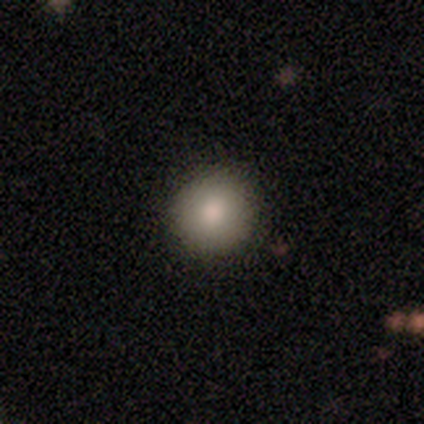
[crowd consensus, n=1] Overall: smooth (100%). How rounded: in between (100%). Merging: none (100%).